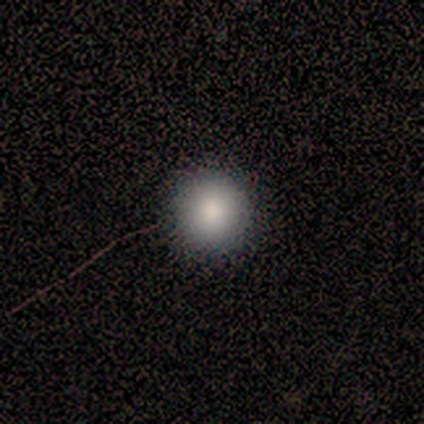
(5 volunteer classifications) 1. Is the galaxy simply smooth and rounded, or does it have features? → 100% smooth, 0% featured or disk, 0% star or artifact.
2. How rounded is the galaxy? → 80% round, 20% in between, 0% cigar-shaped.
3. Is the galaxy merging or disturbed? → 100% none, 0% minor disturbance, 0% major disturbance, 0% merger.